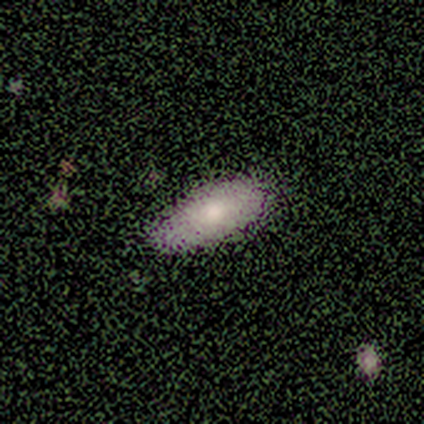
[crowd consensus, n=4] A smooth galaxy with no disk features (75%) that is in between round and cigar-shaped (100%).

Vote fractions:
- Smooth or featured? smooth: 75% / featured or disk: 25% / star or artifact: 0%
- How rounded? in between: 100% / round: 0% / cigar-shaped: 0%
- Merging? none: 75% / minor disturbance: 25% / major disturbance: 0% / merger: 0%